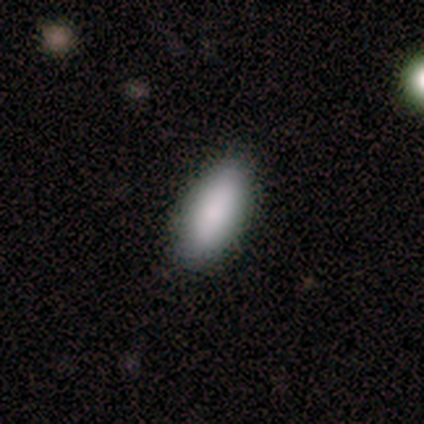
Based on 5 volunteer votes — Overall: smooth (100%). How rounded: in between (100%). Merging: none (100%).